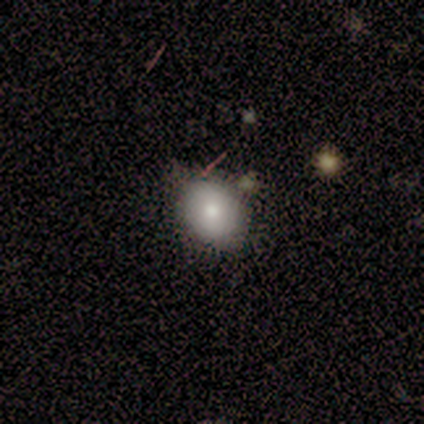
Morphology: type=smooth (75%); roundness=in between (100%); merging=none (100%).